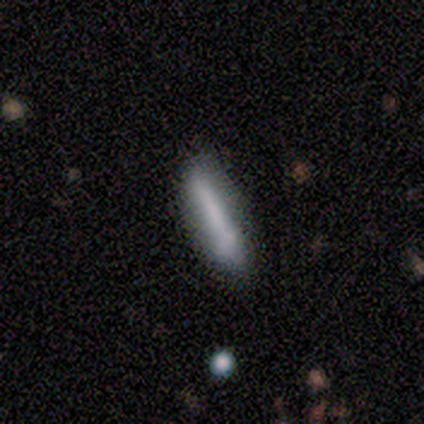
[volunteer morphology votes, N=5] This is likely a featured or disk galaxy (60%). It is clearly not viewed edge-on (100%). Bar: likely no (67%). Spiral arm pattern: likely no (67%). Central bulge: likely none (67%). Merging: marginally none (40%, tied with minor disturbance).